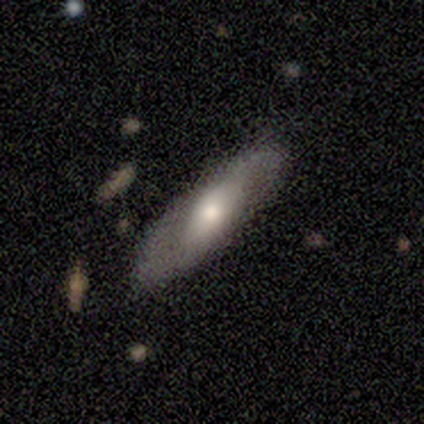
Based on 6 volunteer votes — This appears to be a featured or disk galaxy (67%) with no bar (100%), 2 (100%) loose (67%) spiral arms (75%) and a moderate central bulge (50%). Merging: none (83%).